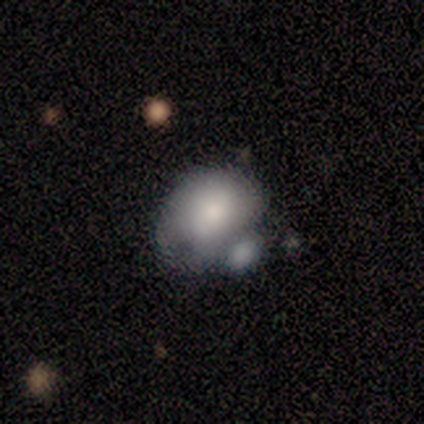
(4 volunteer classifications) This is likely a smooth galaxy (75%). How rounded: clearly in between (100%). Merging: possibly major disturbance (50%, tied with merger).